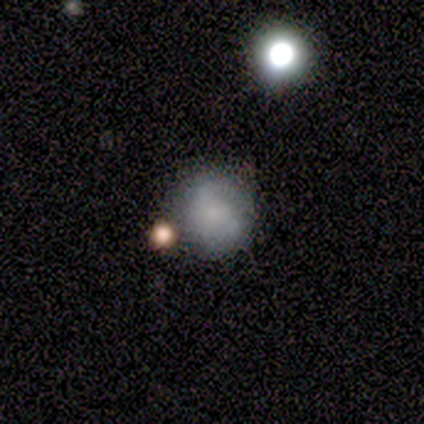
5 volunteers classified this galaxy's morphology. smooth_or_featured: smooth (p=0.60) [alt: featured or disk p=0.40]
how_rounded: round (p=0.67) [alt: in between p=0.33]
merging: minor disturbance (p=0.80) [alt: major disturbance p=0.20]